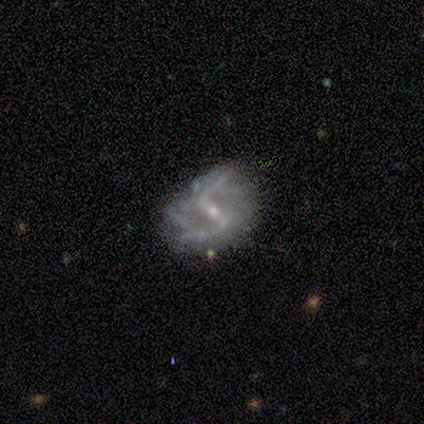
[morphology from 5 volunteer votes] featured or disk 100%, smooth 0%, star or artifact 0%. Down the decision tree: edge-on disk — no (100%); bar — strong (40%, tied with weak); spiral arms — yes (100%); spiral arm count — 2 (100%); spiral winding — loose (60%); bulge size — small (60%); merging — none (80%).